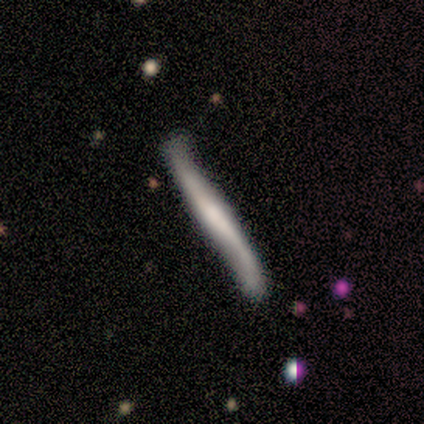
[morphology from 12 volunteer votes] Smooth or featured? featured or disk (83%)
Edge-on disk? yes (80%)
Edge-on bulge? none (62%)
Merging? none (50%)